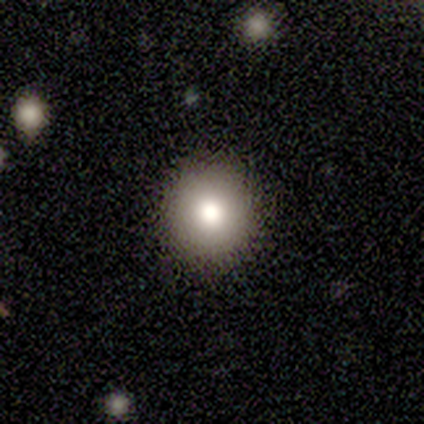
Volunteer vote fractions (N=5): Overall: smooth (80%). How rounded: round (100%). Merging: none (100%).